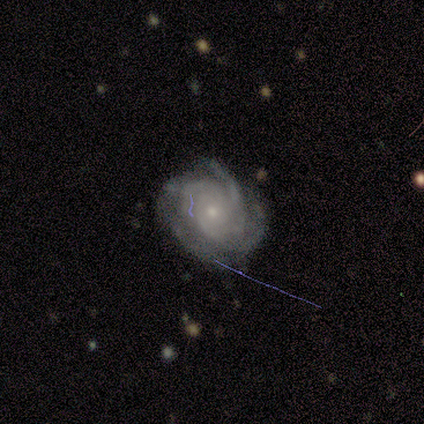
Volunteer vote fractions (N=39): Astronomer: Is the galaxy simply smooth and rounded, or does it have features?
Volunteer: featured or disk — 85%.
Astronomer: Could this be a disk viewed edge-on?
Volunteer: no — 97%.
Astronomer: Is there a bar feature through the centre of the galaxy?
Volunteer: no — 81%.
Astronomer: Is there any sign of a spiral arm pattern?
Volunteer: yes — 97%.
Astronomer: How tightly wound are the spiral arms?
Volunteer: tight — 74%.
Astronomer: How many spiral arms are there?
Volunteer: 3 — 32% (runner-up: can't tell, 29%).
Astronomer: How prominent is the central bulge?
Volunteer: small — 91%.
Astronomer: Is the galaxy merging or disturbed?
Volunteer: none — 77%.